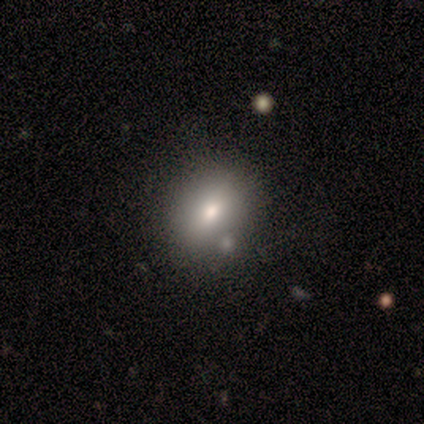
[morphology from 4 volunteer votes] Smooth or featured?
  - smooth: 50% * (tied)
  - featured or disk: 50% * (tied)
  - star or artifact: 0%
How rounded?
  - round: 100% *
  - in between: 0%
  - cigar-shaped: 0%
Merging?
  - none: 100% *
  - minor disturbance: 0%
  - major disturbance: 0%
  - merger: 0%